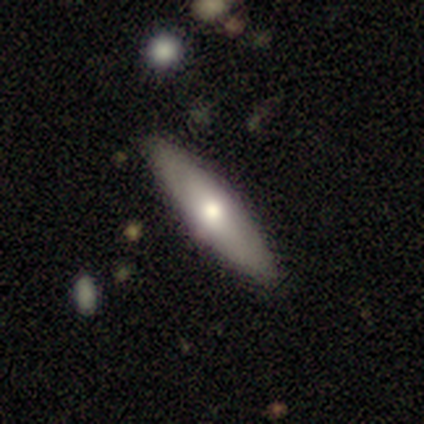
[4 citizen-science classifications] Smooth or featured? featured or disk (75%)
Edge-on disk? yes (67%)
Edge-on bulge? rounded (100%)
Merging? none (75%)